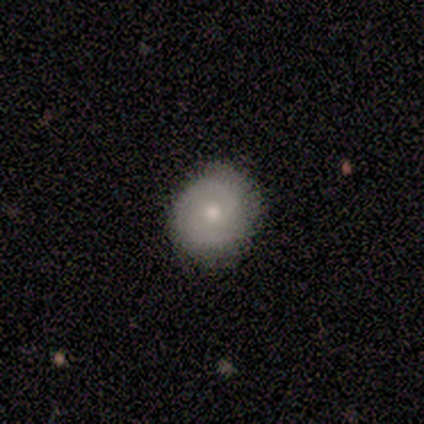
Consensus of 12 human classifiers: smooth-or-featured: smooth: 58% | featured or disk: 42% | star or artifact: 0%
  how-rounded: round: 100% | in between: 0% | cigar-shaped: 0%
  merging: none: 100% | minor disturbance: 0% | major disturbance: 0% | merger: 0%